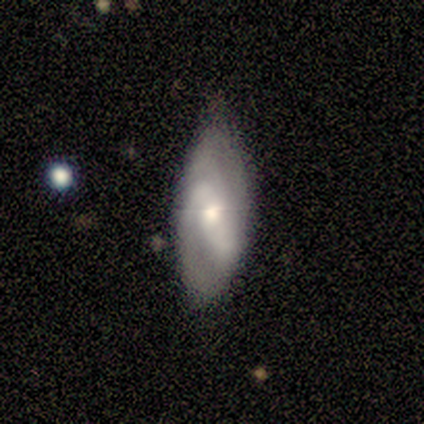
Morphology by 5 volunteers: smooth_or_featured: featured or disk (p=0.60) [alt: smooth p=0.40]
disk_edge_on: no (p=1.00)
bar: strong (p=0.67) [alt: weak p=0.33]
has_spiral_arms: yes (p=1.00)
spiral_winding: medium (p=1.00)
spiral_arm_count: 2 (p=0.67) [alt: 1 p=0.33]
bulge_size: moderate (p=0.67) [alt: small p=0.33]
merging: none (p=0.80) [alt: minor disturbance p=0.20]